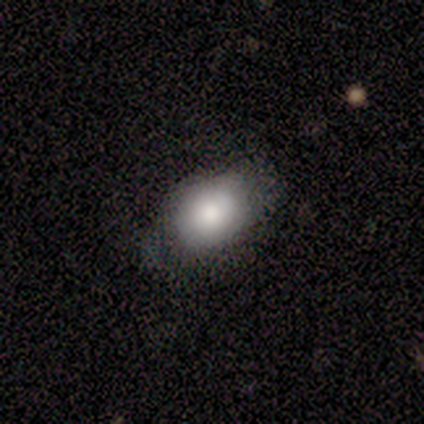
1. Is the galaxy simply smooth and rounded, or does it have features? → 100% smooth, 0% featured or disk, 0% star or artifact.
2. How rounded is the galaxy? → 67% in between, 33% round, 0% cigar-shaped.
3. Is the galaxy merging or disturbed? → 100% none, 0% minor disturbance, 0% major disturbance, 0% merger.